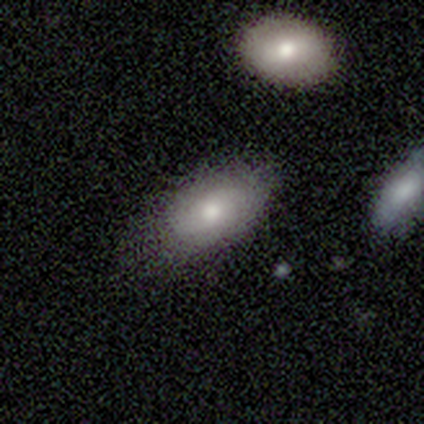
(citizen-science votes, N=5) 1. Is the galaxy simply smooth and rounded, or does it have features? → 100% smooth, 0% featured or disk, 0% star or artifact.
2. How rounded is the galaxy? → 100% in between, 0% round, 0% cigar-shaped.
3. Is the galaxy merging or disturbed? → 60% none, 40% minor disturbance, 0% major disturbance, 0% merger.